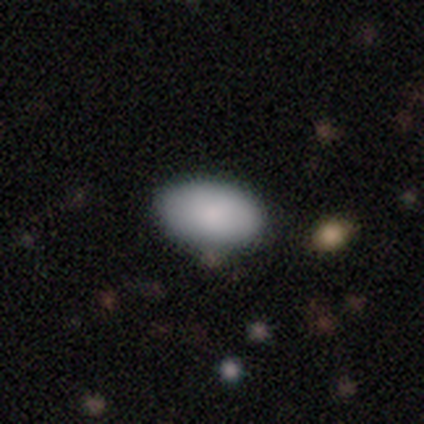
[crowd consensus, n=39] This appears to be a smooth galaxy with no disk features (95%) that is in between round and cigar-shaped (95%). Merging: none (87%).